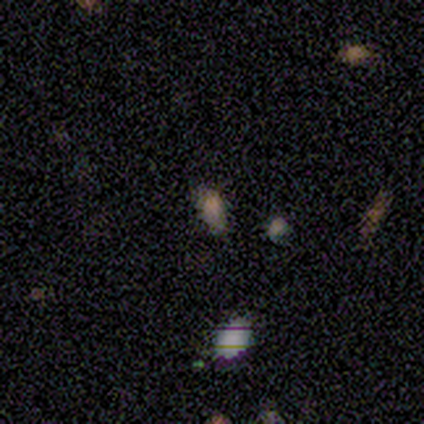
Smooth or featured? 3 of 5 (60%) said star or artifact.